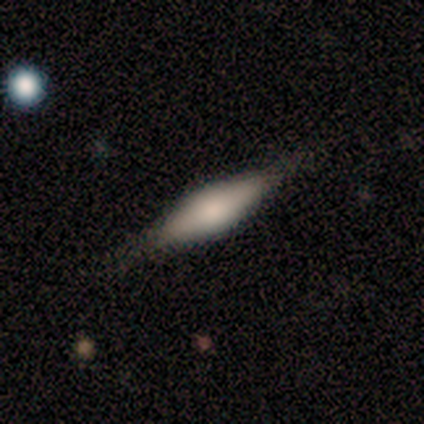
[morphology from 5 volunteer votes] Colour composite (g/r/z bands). It shows a featured or disk galaxy (60%) viewed edge-on (100%) with a boxy central bulge (67%). Merging: none (60%).